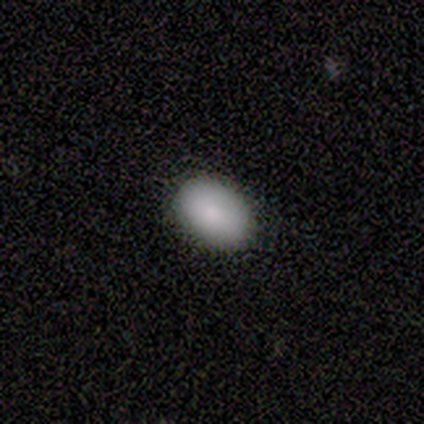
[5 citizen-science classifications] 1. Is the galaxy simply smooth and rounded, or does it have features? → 100% smooth, 0% featured or disk, 0% star or artifact.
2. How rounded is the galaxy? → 60% in between, 40% round, 0% cigar-shaped.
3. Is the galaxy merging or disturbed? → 100% none, 0% minor disturbance, 0% major disturbance, 0% merger.